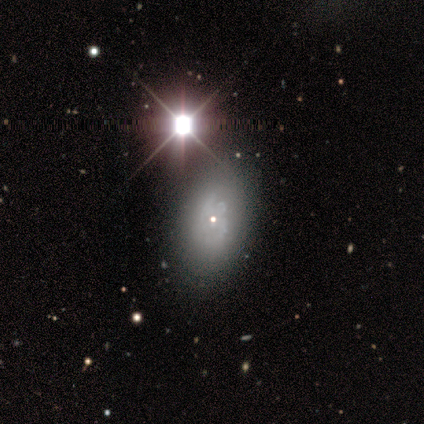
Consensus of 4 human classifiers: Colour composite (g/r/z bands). It shows a star or artifact, not a galaxy (50%).